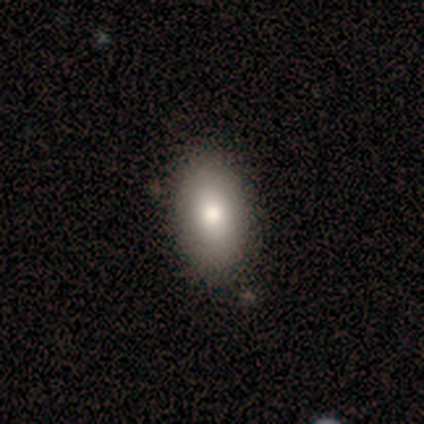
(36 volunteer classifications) Smooth or featured: smooth — 81% (featured or disk — 14%)
How rounded: in between — 97% (cigar-shaped — 3%)
Merging: none — 82% (minor disturbance — 12%)